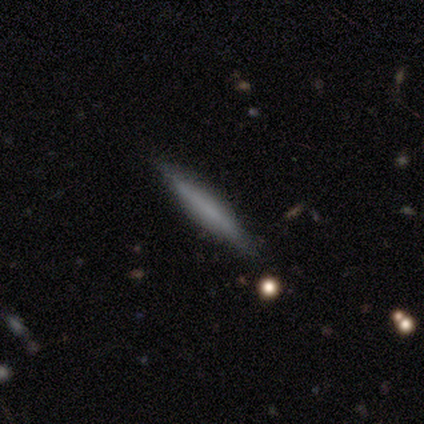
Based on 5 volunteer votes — Volunteers were most divided on "smooth or featured" (2-way tie): smooth: 40%, featured or disk: 40%, star or artifact: 20%. More confident: how rounded — cigar-shaped (100%); merging — none (100%).